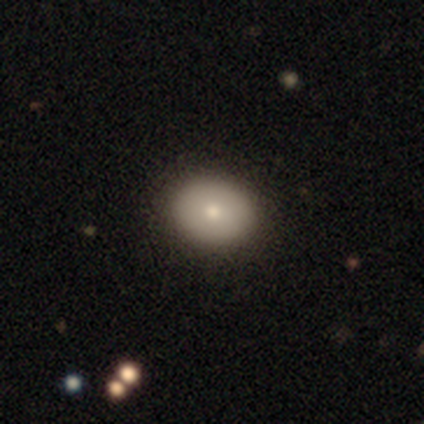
Smooth or featured? smooth (75%)
How rounded? round (67%)
Merging? none (100%)